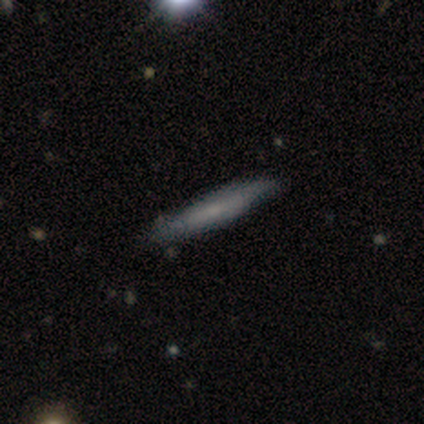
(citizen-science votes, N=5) Smooth or featured?
  - smooth: 60% *
  - featured or disk: 20%
  - star or artifact: 20%
How rounded?
  - cigar-shaped: 100% *
  - round: 0%
  - in between: 0%
Merging?
  - none: 100% *
  - minor disturbance: 0%
  - major disturbance: 0%
  - merger: 0%